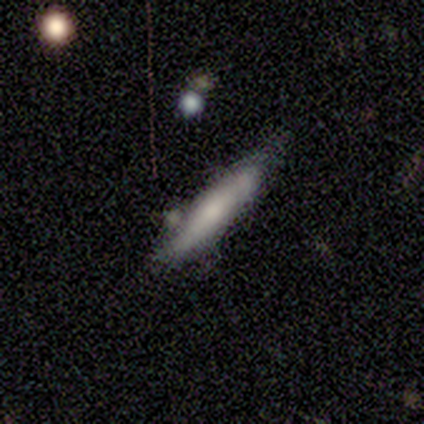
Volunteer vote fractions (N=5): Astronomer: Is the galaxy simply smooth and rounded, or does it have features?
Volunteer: featured or disk — 60% (runner-up: smooth, 40%).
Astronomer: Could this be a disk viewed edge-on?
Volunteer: yes — 67%.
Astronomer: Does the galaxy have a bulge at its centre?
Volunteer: rounded — 100%.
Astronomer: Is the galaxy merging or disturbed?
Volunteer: none — 40% (runner-up: minor disturbance, 20%).